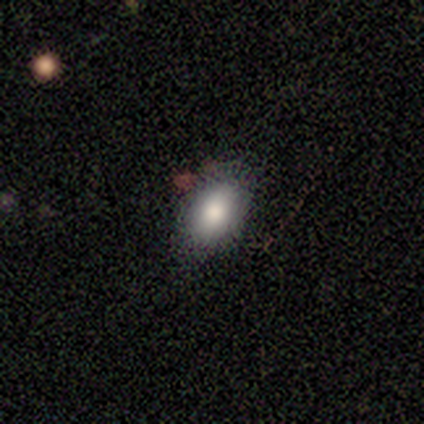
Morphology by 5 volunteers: smooth_or_featured: smooth (p=1.00)
how_rounded: in between (p=1.00)
merging: none (p=0.80) [alt: minor disturbance p=0.20]